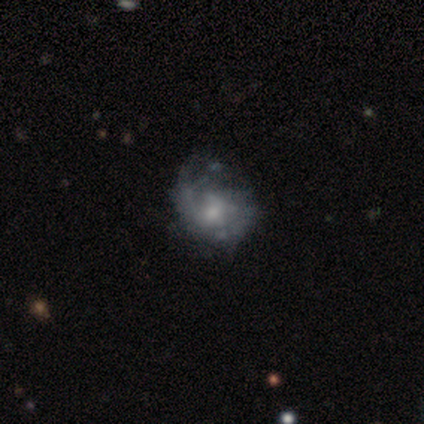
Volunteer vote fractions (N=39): Volunteers were most divided on "spiral arm count": 2: 41%, can't tell: 29%, 1: 24%, 4: 6%, 3: 0%, more than 4: 0%. More confident: edge-on disk — no (100%); bar — no (85%); smooth or featured — featured or disk (69%); spiral arms — yes (63%); bulge size — small (56%); spiral winding — medium (53%); merging — minor disturbance (50%).